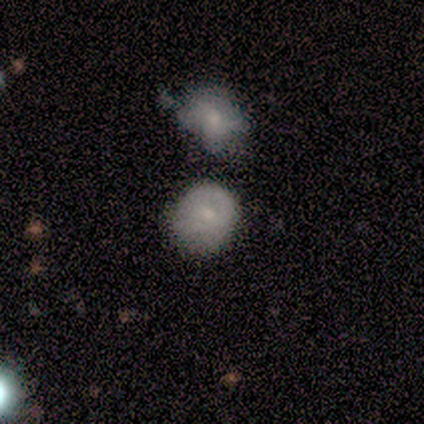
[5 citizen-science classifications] smooth 80%, featured or disk 20%, star or artifact 0%. Down the decision tree: how rounded — round (75%); merging — minor disturbance (40%, tied with merger).